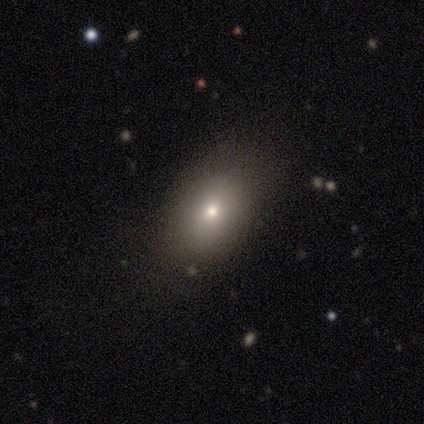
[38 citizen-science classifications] Morphology: type=smooth (68%); roundness=in between (81%); merging=none (74%).